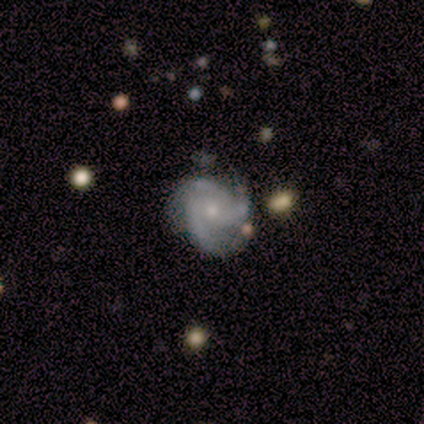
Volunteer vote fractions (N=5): Smooth or featured? featured or disk (60%)
Edge-on disk? no (100%)
Bar? no (100%)
Spiral arms? yes (100%)
Spiral winding? medium (100%)
Spiral arm count? 3 (100%)
Bulge size? moderate (33%, tied with small and none)
Merging? none (67%)